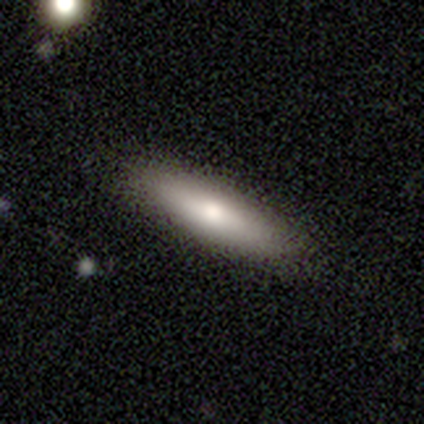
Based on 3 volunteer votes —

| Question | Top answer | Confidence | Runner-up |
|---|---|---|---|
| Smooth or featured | smooth | 100% | — |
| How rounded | cigar-shaped | 67% | in between (33%) |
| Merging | none | 100% | — |